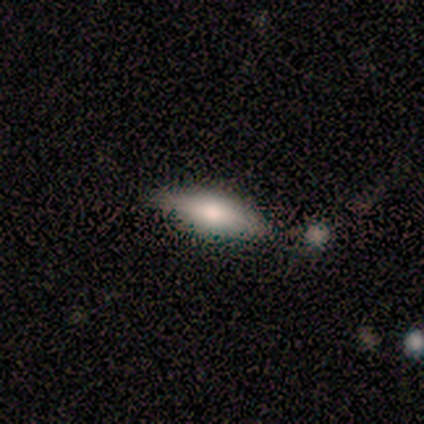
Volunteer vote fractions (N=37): A smooth galaxy with no disk features (65%) that is in between round and cigar-shaped (58%). Merging: none (77%).